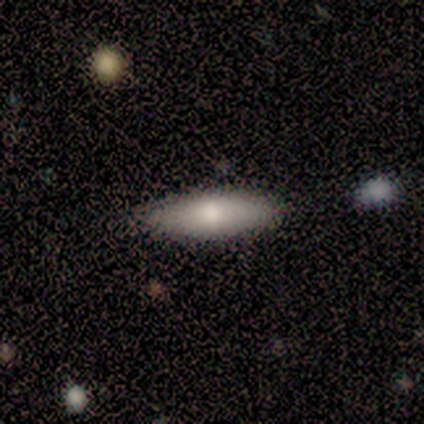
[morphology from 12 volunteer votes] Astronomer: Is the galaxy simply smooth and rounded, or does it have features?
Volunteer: smooth — 75%.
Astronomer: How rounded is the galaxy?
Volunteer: cigar-shaped — 78%.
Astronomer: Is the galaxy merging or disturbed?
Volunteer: none — 82%.